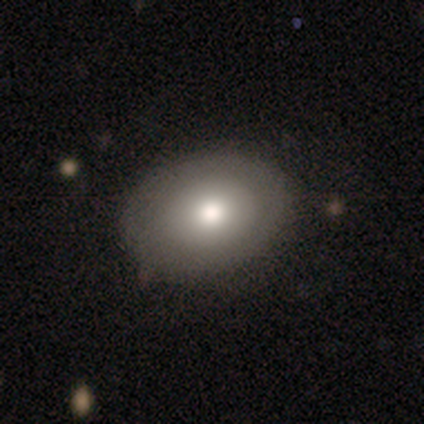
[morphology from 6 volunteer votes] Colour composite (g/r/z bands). It shows a smooth galaxy with no disk features (83%) that is in between round and cigar-shaped (100%). Merging: none (83%).